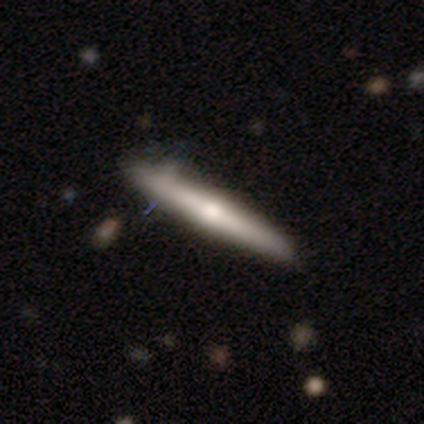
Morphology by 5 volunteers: type=featured or disk (60%); edge-on=yes (100%); edge-on bulge=rounded (100%); merging=none (40%, tied with minor disturbance).